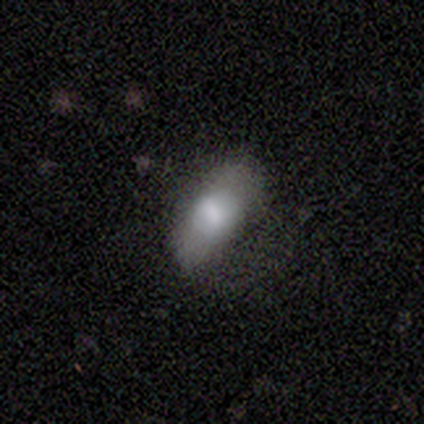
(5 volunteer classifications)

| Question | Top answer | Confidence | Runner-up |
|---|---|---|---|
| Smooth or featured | smooth | 60% | featured or disk (40%) |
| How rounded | in between | 67% | cigar-shaped (33%) |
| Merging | none | 60% | minor disturbance (20%) |